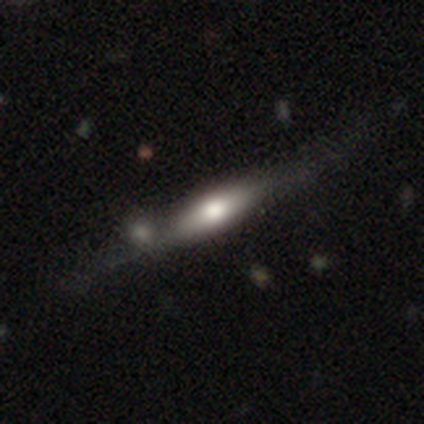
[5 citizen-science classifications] Smooth or featured? smooth (40%, tied with featured or disk)
How rounded? cigar-shaped (100%)
Merging? none (50%, tied with minor disturbance)